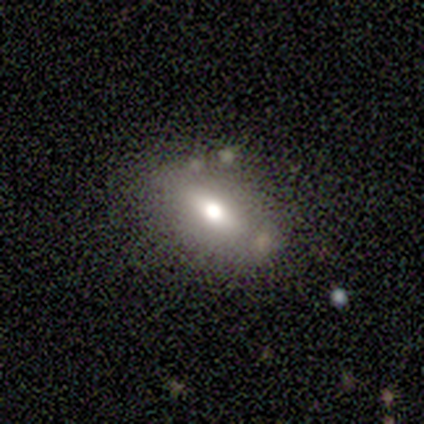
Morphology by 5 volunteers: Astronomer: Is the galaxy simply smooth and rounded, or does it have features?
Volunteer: smooth — 60% (runner-up: featured or disk, 40%).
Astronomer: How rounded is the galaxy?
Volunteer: in between — 67%.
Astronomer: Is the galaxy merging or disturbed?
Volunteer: none — 60% (runner-up: minor disturbance, 40%).